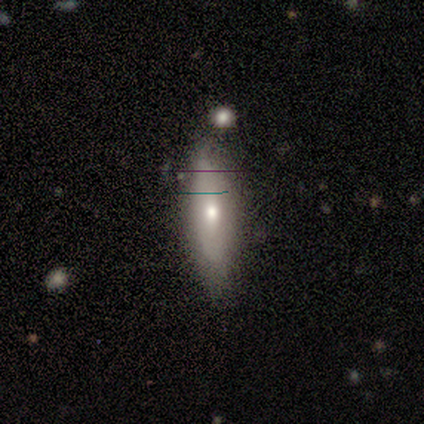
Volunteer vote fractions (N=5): Smooth or featured? 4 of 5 (80%) said smooth. How rounded? 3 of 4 (75%) said cigar-shaped. Merging? 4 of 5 (80%) said none.